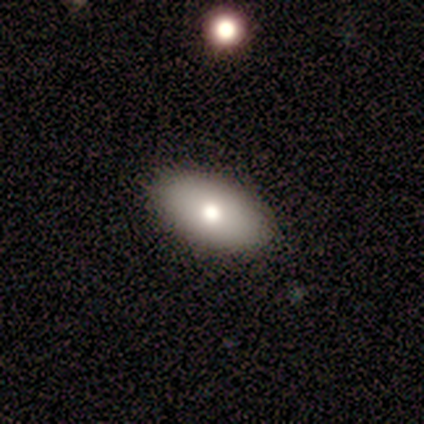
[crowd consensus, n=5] Overall: smooth (80%). How rounded: in between (100%). Merging: none (80%).